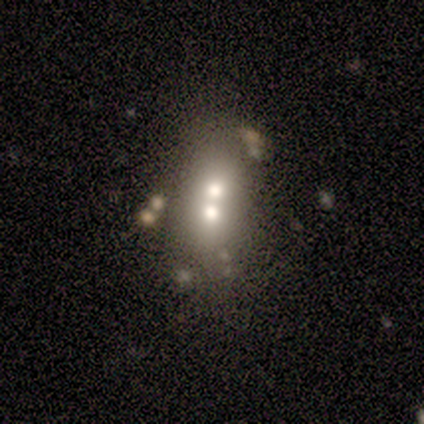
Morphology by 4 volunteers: type=smooth (100%); roundness=in between (75%); merging=merger (75%).